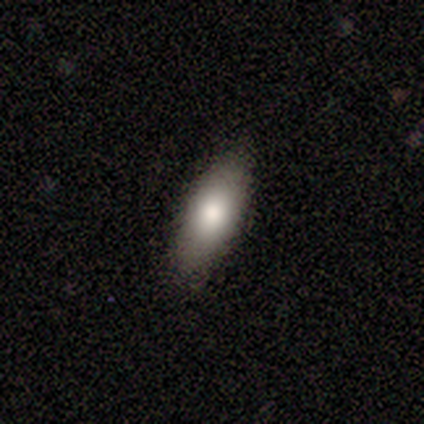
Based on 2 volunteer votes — Volunteers were most divided on "smooth or featured" (2-way tie): smooth: 50%, featured or disk: 50%, star or artifact: 0%. More confident: how rounded — in between (100%); merging — none (100%).